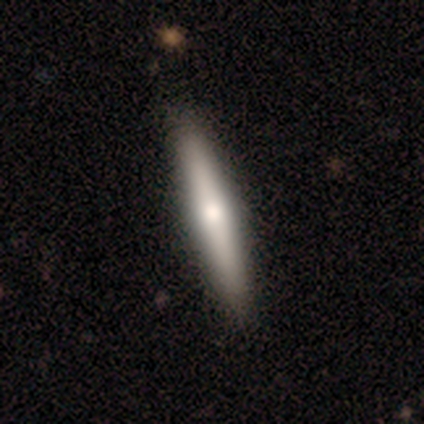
Volunteers were most divided on "smooth or featured": featured or disk: 60%, smooth: 40%, star or artifact: 0%. More confident: edge-on disk — yes (100%); merging — none (100%); edge-on bulge — none (67%).